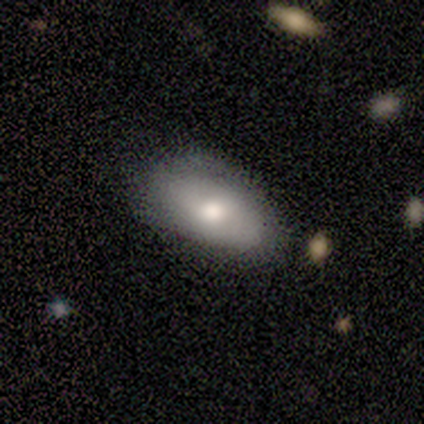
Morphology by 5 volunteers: type=smooth (40%, tied with featured or disk); roundness=in between (100%); merging=none (75%).